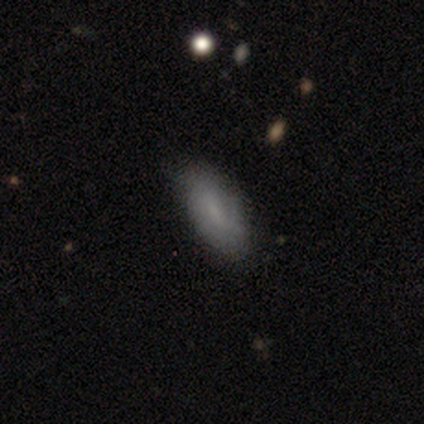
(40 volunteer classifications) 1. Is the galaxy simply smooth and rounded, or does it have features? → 75% smooth, 22% featured or disk, 2% star or artifact.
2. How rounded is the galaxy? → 83% in between, 13% cigar-shaped, 3% round.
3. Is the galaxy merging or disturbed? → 82% none, 15% minor disturbance, 3% major disturbance, 0% merger.